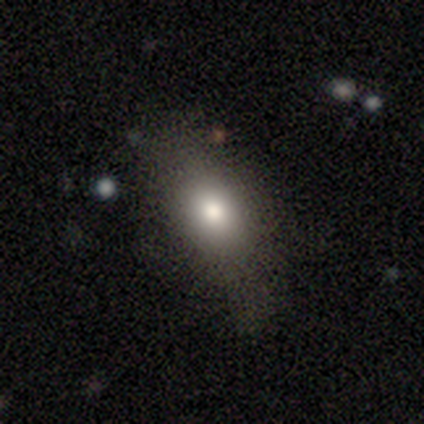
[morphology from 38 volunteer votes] smooth 82%, featured or disk 16%, star or artifact 3%. Down the decision tree: how rounded — in between (77%); merging — none (78%).